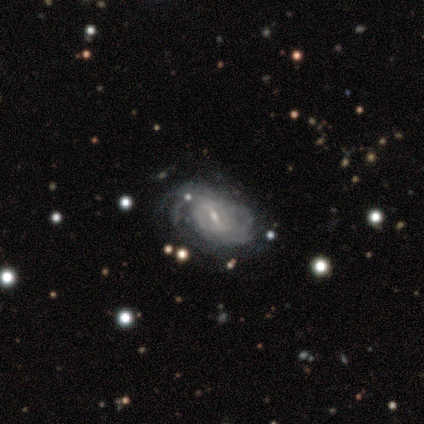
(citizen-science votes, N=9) featured or disk 89%, smooth 11%, star or artifact 0%. Down the decision tree: edge-on disk — no (100%); bar — weak (62%); spiral arms — yes (100%); spiral arm count — can't tell (88%); spiral winding — tight (50%); bulge size — moderate (75%); merging — none (56%).